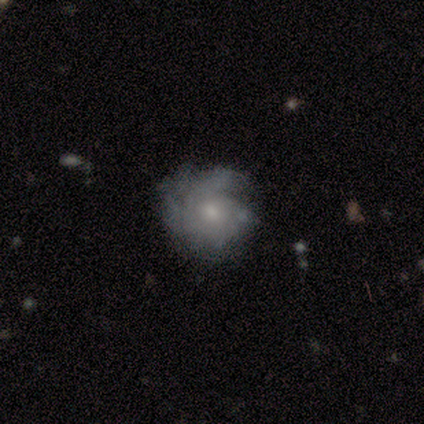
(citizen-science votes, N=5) This appears to be a featured or disk galaxy (100%) with no bar (100%), tight (75%) spiral arms (80%) and a small central bulge (60%). Merging: minor disturbance (60%).